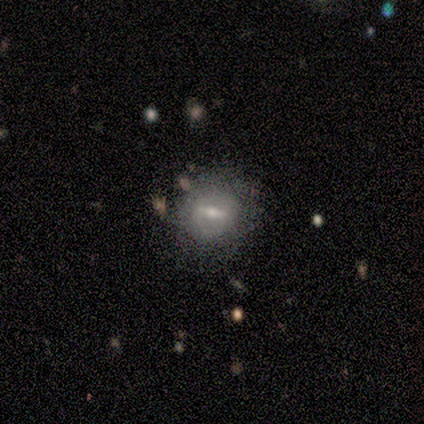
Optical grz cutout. It shows a featured or disk galaxy (83%) with a strong bar (60%), no spiral arms (80%) and a small central bulge (60%). Merging: none (100%).